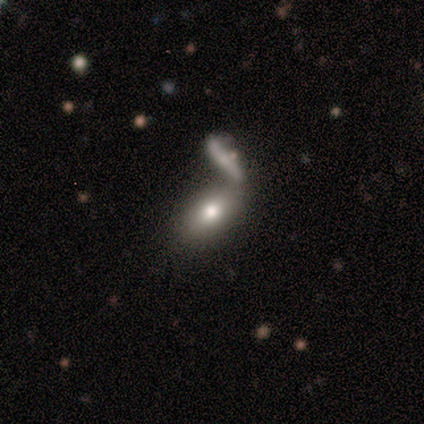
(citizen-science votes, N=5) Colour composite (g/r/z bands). It shows a smooth galaxy with no disk features (100%) that is in between round and cigar-shaped (100%). Merging: merger (60%).